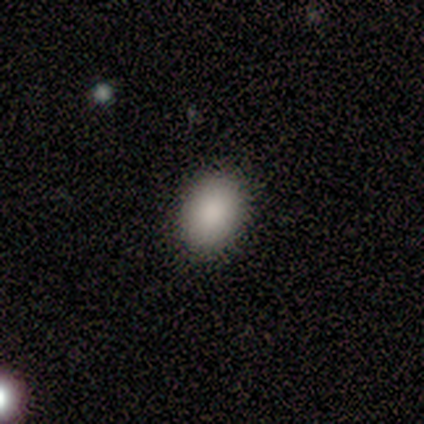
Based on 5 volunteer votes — smooth_or_featured: smooth (p=0.80) [alt: star or artifact p=0.20]
how_rounded: in between (p=0.75) [alt: round p=0.25]
merging: none (p=0.75) [alt: minor disturbance p=0.25]